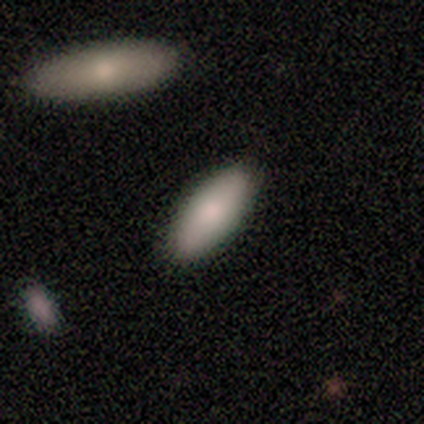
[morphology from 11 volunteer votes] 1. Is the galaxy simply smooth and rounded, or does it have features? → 82% smooth, 9% featured or disk, 9% star or artifact.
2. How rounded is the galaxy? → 89% in between, 11% cigar-shaped, 0% round.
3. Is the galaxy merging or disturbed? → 80% none, 10% minor disturbance, 10% merger, 0% major disturbance.